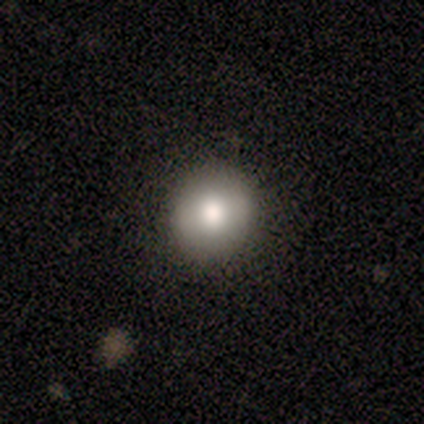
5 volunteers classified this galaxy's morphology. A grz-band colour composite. It shows a smooth galaxy with no disk features (80%) that is round (100%). Merging: none (60%).